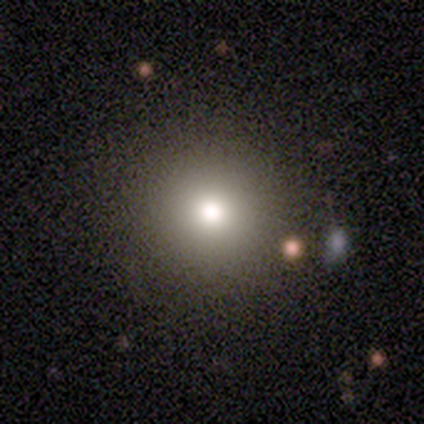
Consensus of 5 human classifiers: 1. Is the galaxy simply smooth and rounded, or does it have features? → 100% smooth, 0% featured or disk, 0% star or artifact.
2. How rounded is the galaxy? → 100% round, 0% in between, 0% cigar-shaped.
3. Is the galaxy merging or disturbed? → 100% none, 0% minor disturbance, 0% major disturbance, 0% merger.